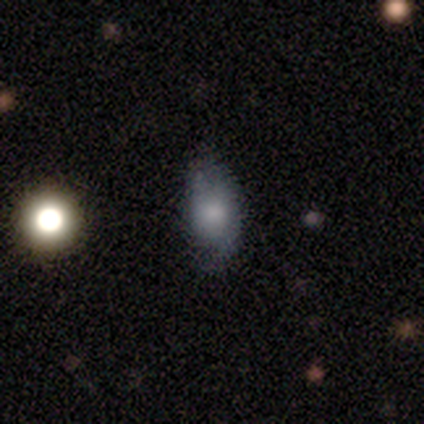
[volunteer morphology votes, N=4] This is possibly a featured or disk galaxy (50%). It is clearly not viewed edge-on (100%). Bar: clearly no (100%). Spiral arm pattern: possibly yes (50%, tied with no). Spiral arm count: clearly 1 (100%). Spiral winding: clearly medium (100%). Central bulge: possibly moderate (50%, tied with small). Merging: clearly none (100%).